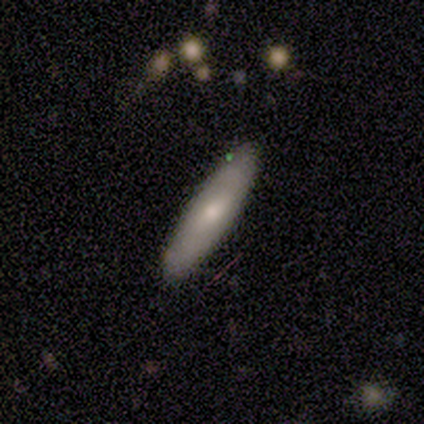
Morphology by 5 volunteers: Smooth or featured? smooth (80%)
How rounded? cigar-shaped (100%)
Merging? none (100%)